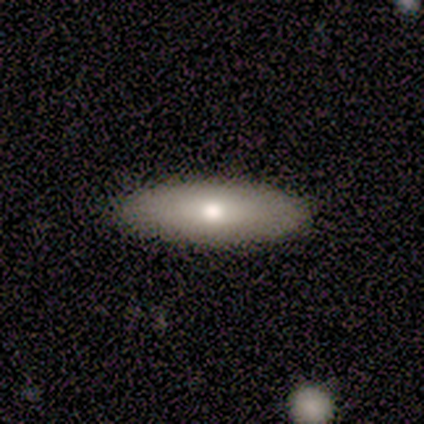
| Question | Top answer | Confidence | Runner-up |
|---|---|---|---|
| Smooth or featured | smooth | 80% | featured or disk (20%) |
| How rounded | in between | 100% | — |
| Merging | none | 100% | — |